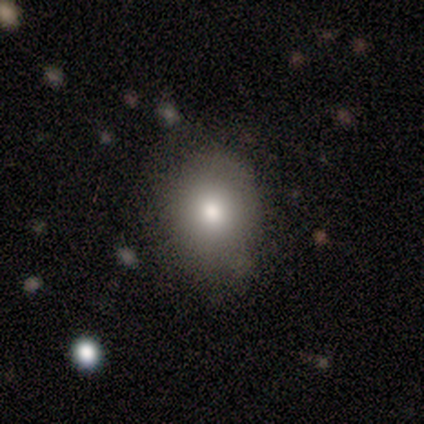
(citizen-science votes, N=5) smooth 80%, star or artifact 20%, featured or disk 0%. Down the decision tree: how rounded — in between (75%); merging — none (75%).